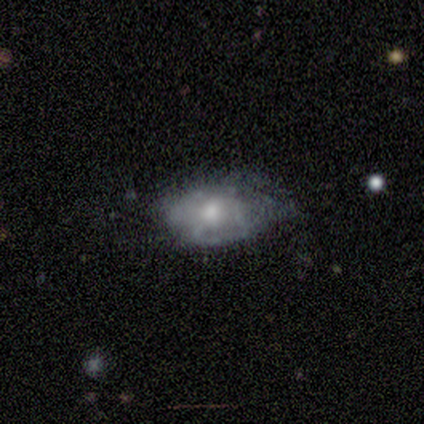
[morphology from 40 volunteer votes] smooth-or-featured: smooth: 45% (tied) | featured or disk: 45% (tied) | star or artifact: 10%
  how-rounded: in between: 89% | round: 11% | cigar-shaped: 0%
  merging: none: 50% | minor disturbance: 39% | major disturbance: 11% | merger: 0%